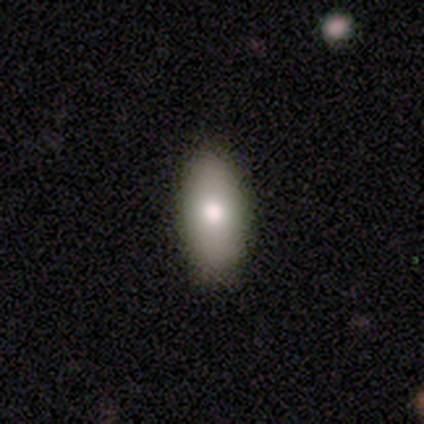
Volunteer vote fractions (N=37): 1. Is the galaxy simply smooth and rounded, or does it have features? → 84% smooth, 16% featured or disk, 0% star or artifact.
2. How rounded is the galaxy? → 84% in between, 16% cigar-shaped, 0% round.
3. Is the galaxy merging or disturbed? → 89% none, 11% minor disturbance, 0% major disturbance, 0% merger.